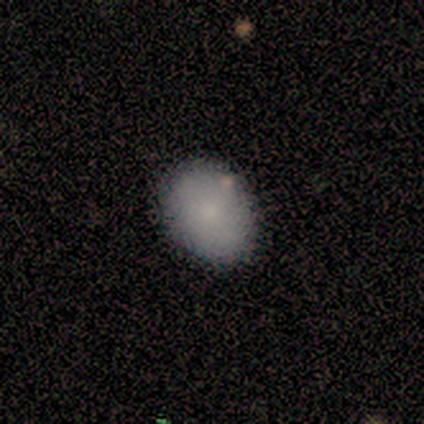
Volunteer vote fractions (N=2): Volunteers were most divided on "merging" (2-way tie): minor disturbance: 50%, merger: 50%, none: 0%, major disturbance: 0%. More confident: smooth or featured — smooth (100%); how rounded — in between (100%).